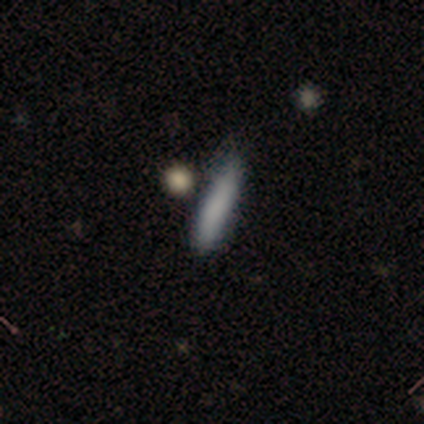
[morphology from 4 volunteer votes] Q: Smooth or featured?
A: smooth (100%)
Q: How rounded?
A: cigar-shaped (100%)
Q: Merging?
A: none (100%)